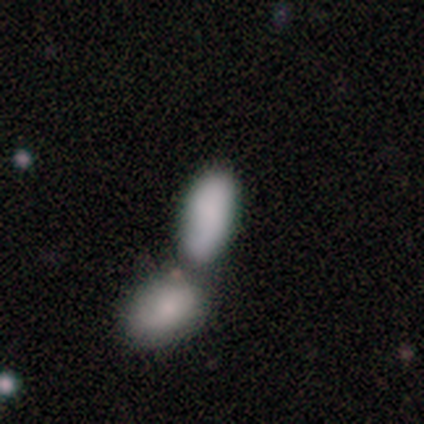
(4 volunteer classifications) A smooth galaxy with no disk features (100%) that is in between round and cigar-shaped (100%). Merging: merger (75%).